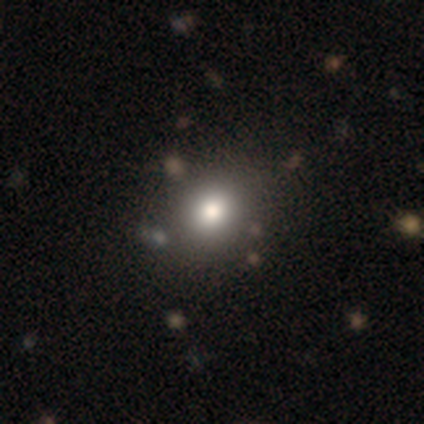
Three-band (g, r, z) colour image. It shows a smooth galaxy with no disk features (85%) that is round (85%). Merging: none (71%).